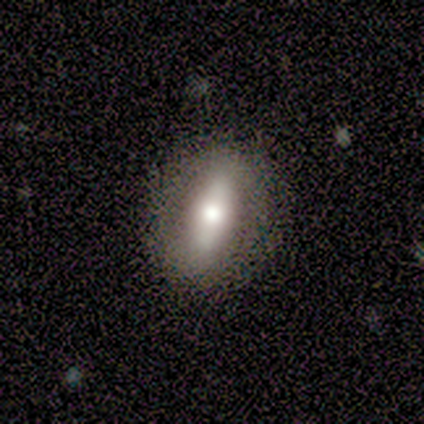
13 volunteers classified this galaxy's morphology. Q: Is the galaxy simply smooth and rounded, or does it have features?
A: smooth — 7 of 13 (54%).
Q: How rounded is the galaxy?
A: in between — 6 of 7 (86%).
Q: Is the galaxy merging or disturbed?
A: none — 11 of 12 (92%).